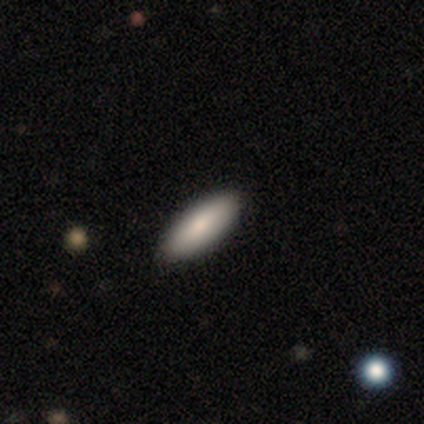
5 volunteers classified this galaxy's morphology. Smooth or featured? smooth (80%)
How rounded? in between (100%)
Merging? none (100%)